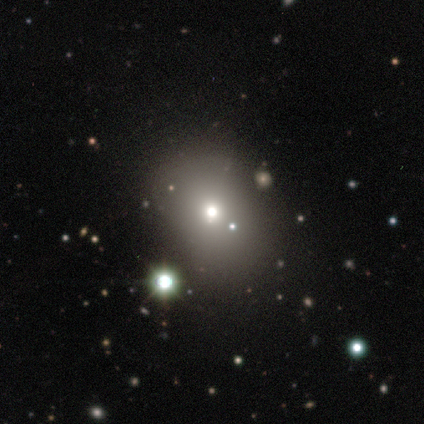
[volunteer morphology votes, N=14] Smooth or featured?
  - smooth: 50% *
  - star or artifact: 29%
  - featured or disk: 21%
How rounded?
  - in between: 57% *
  - round: 43%
  - cigar-shaped: 0%
Merging?
  - none: 60% *
  - minor disturbance: 30%
  - merger: 10%
  - major disturbance: 0%